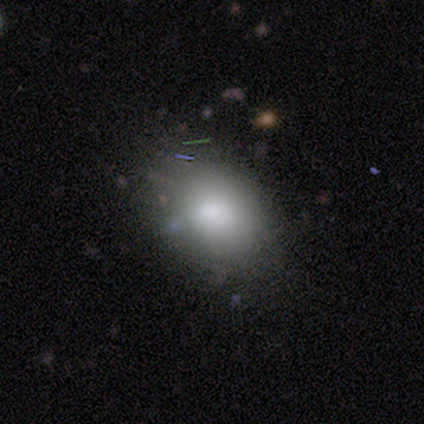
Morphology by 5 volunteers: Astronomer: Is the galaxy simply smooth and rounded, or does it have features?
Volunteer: smooth — 60% (runner-up: star or artifact, 40%).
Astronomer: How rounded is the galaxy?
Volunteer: in between — 100%.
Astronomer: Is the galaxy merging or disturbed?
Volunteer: none — 33%, tied with minor disturbance and major disturbance at 33%.